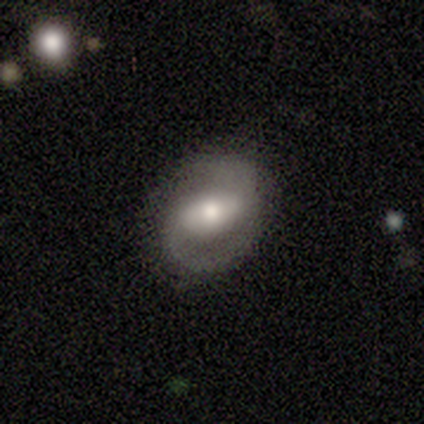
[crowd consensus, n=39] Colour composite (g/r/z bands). It shows a featured or disk galaxy (82%) with a weak bar (40%), 2 (90%) loose (38%) spiral arms (97%) and a moderate central bulge (53%). Merging: none (70%).